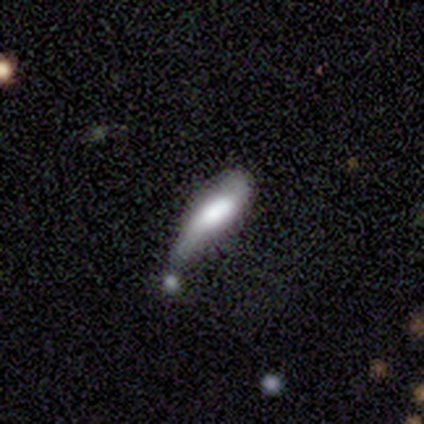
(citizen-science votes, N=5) This is clearly a smooth galaxy (80%). How rounded: clearly in between (100%). Merging: likely minor disturbance (60%).